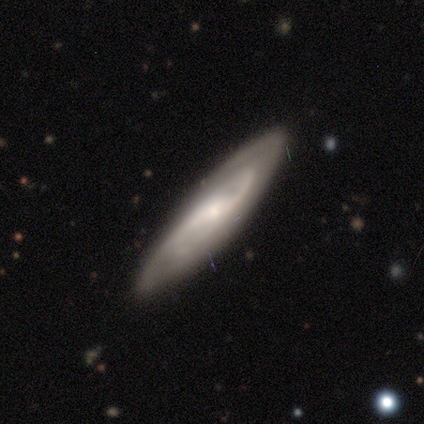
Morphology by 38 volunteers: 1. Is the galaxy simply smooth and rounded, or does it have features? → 82% featured or disk, 13% smooth, 5% star or artifact.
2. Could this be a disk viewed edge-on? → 77% no, 23% yes.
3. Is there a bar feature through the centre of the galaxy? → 46% weak, 29% strong, 25% no.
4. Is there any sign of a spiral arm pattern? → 92% yes, 8% no.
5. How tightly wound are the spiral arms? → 50% medium, 27% tight, 23% loose.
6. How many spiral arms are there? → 68% 2, 27% can't tell, 5% 3, 0% 1, 0% 4, 0% more than 4.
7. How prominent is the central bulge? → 67% small, 25% moderate, 4% dominant, 4% large, 0% none.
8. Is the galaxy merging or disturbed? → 67% none, 28% minor disturbance, 3% major disturbance, 3% merger.